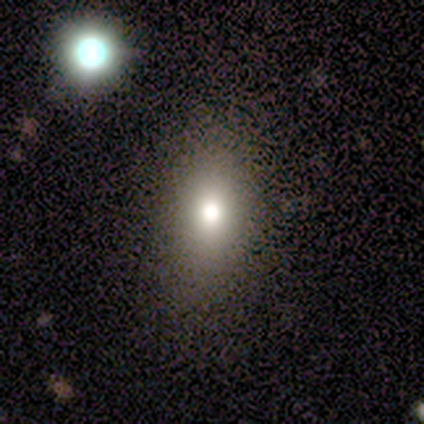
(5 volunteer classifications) smooth-or-featured: smooth: 60% | featured or disk: 20% | star or artifact: 20%
  how-rounded: in between: 100% | round: 0% | cigar-shaped: 0%
  merging: none: 100% | minor disturbance: 0% | major disturbance: 0% | merger: 0%